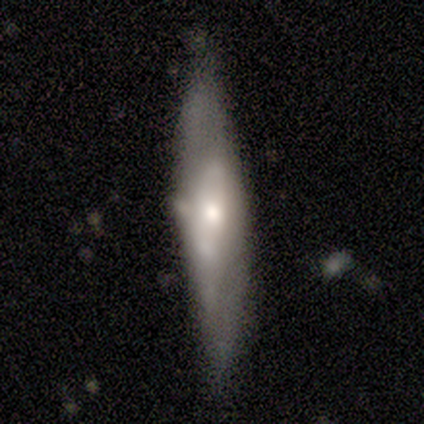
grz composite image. It shows a smooth galaxy with no disk features (40%, tied with featured or disk) that is cigar-shaped (100%). Merging: none (100%).